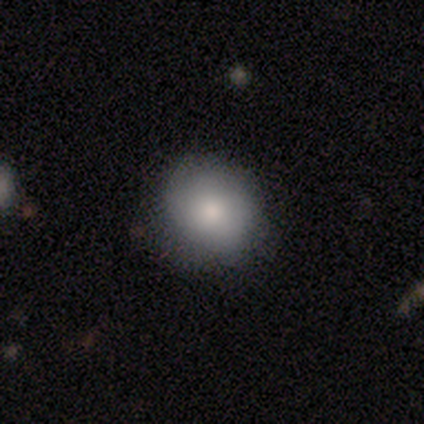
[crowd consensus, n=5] This appears to be a smooth galaxy with no disk features (80%) that is round (100%). Merging: none (100%).